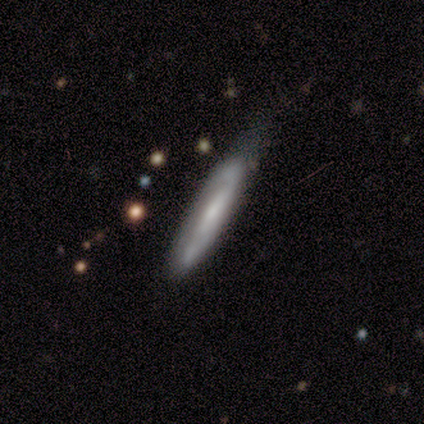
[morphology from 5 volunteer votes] featured or disk 60%, smooth 40%, star or artifact 0%. Down the decision tree: edge-on disk — yes (67%); edge-on bulge — none (50%, tied with rounded); merging — none (40%, tied with minor disturbance).